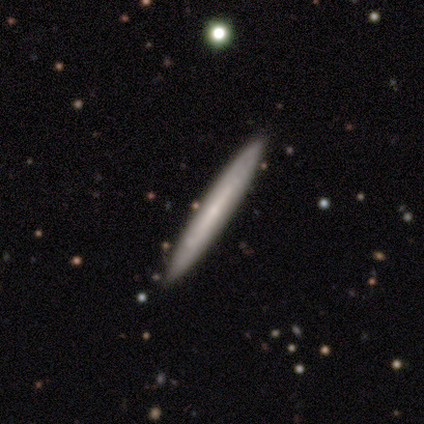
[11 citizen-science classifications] Morphology: type=featured or disk (64%); edge-on=yes (100%); edge-on bulge=rounded (57%); merging=none (100%).